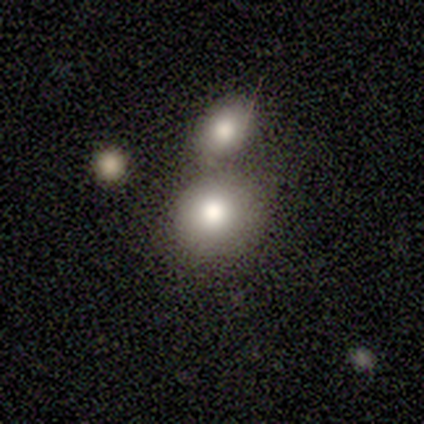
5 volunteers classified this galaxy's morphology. This appears to be a smooth galaxy with no disk features (80%) that is round (100%). Merging: none (60%).